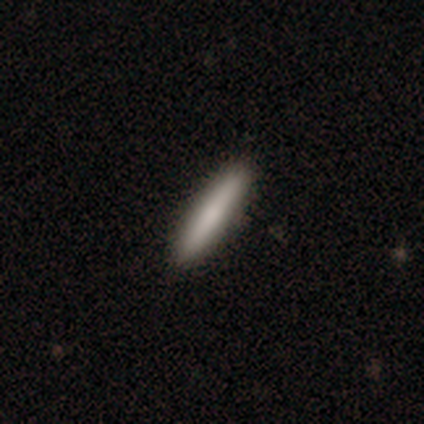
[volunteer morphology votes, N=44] A smooth galaxy with no disk features (68%) that is cigar-shaped (97%).

Vote fractions:
- Smooth or featured? smooth: 68% / featured or disk: 23% / star or artifact: 9%
- How rounded? cigar-shaped: 97% / in between: 3% / round: 0%
- Merging? none: 92% / minor disturbance: 8% / major disturbance: 0% / merger: 0%